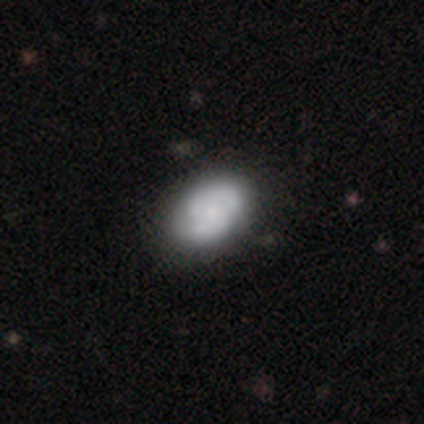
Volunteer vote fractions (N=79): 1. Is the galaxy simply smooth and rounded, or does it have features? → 56% featured or disk, 41% smooth, 4% star or artifact.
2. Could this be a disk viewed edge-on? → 100% no, 0% yes.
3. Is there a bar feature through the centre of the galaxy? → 82% no, 16% weak, 2% strong.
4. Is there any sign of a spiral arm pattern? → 82% yes, 18% no.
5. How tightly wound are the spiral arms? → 47% medium, 44% tight, 8% loose.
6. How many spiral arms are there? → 61% 2, 31% can't tell, 8% 3, 0% 1, 0% 4, 0% more than 4.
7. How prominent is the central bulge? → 43% small, 20% moderate, 20% none, 11% large, 5% dominant.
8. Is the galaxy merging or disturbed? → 43% none, 5% minor disturbance, 1% major disturbance, 1% merger.